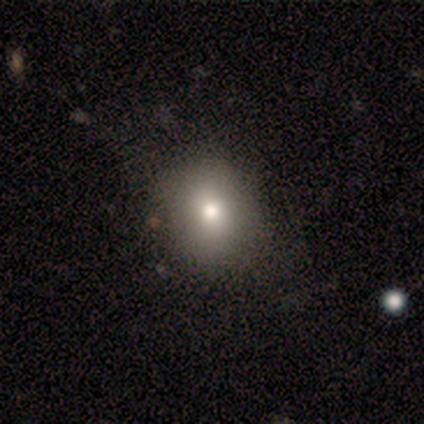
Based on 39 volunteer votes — smooth-or-featured: smooth: 77% | star or artifact: 13% | featured or disk: 10%
  how-rounded: round: 63% | in between: 37% | cigar-shaped: 0%
  merging: none: 68% | minor disturbance: 6% | merger: 6% | major disturbance: 0%